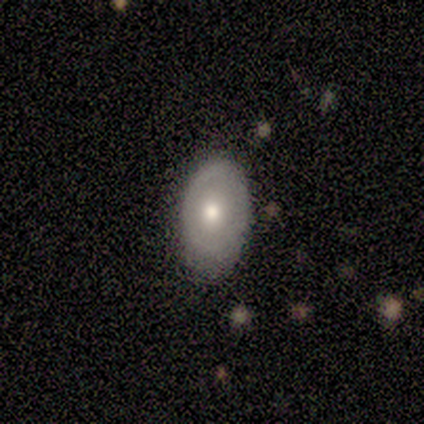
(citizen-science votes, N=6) This appears to be a smooth galaxy with no disk features (50%, tied with featured or disk) that is in between round and cigar-shaped (100%). Merging: none (67%).